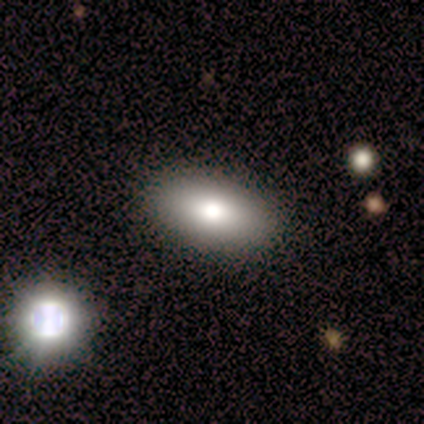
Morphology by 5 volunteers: smooth_or_featured: smooth (p=1.00)
how_rounded: in between (p=1.00)
merging: none (p=1.00)